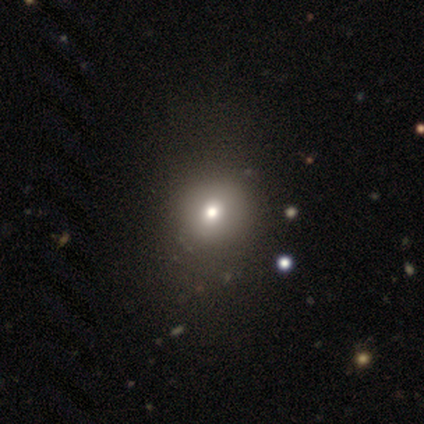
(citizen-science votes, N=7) smooth_or_featured: smooth (p=0.86) [alt: star or artifact p=0.14]
how_rounded: round (p=0.67) [alt: in between p=0.33]
merging: none (p=0.83) [alt: minor disturbance p=0.17]